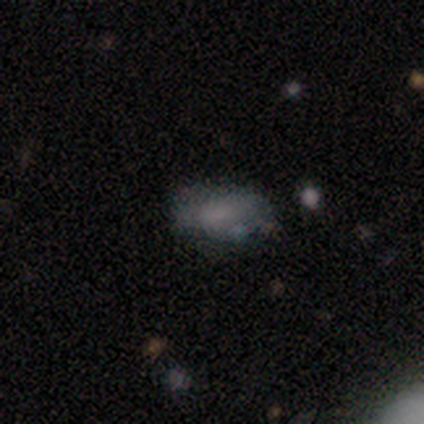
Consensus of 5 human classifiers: Smooth or featured: smooth — 40% (tied with featured or disk — 40%)
How rounded: in between — 100%
Merging: none — 75% (minor disturbance — 25%)